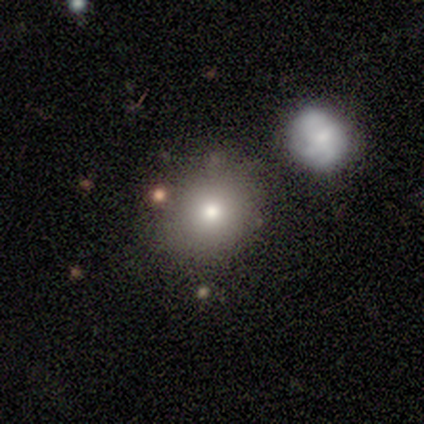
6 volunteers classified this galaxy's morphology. smooth-or-featured: smooth: 67% | featured or disk: 33% | star or artifact: 0%
  how-rounded: round: 50% (tied) | in between: 50% (tied) | cigar-shaped: 0%
  merging: none: 67% | merger: 33% | minor disturbance: 0% | major disturbance: 0%